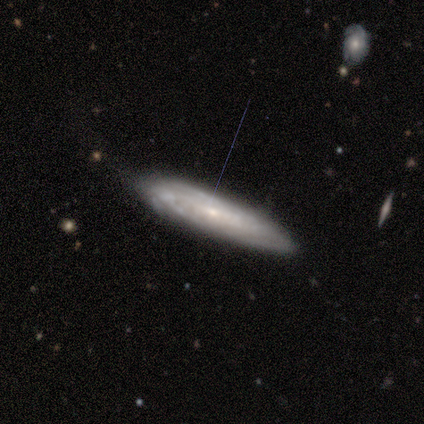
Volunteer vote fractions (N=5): A featured or disk galaxy (60%) viewed edge-on (67%) with no central bulge (100%).

Vote fractions:
- Smooth or featured? featured or disk: 60% / smooth: 40% / star or artifact: 0%
- Edge-on disk? yes: 67% / no: 33%
- Edge-on bulge? none: 100% / boxy: 0% / rounded: 0%
- Merging? none: 60% / minor disturbance: 40% / major disturbance: 0% / merger: 0%